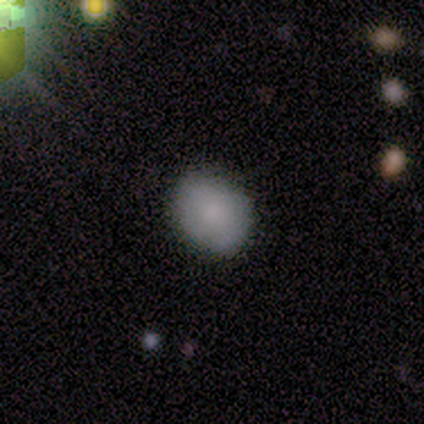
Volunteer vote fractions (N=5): smooth 80%, star or artifact 20%, featured or disk 0%. Down the decision tree: how rounded — in between (75%); merging — none (100%).